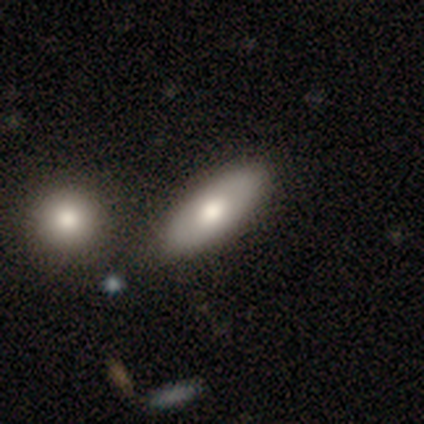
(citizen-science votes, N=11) This appears to be a smooth galaxy with no disk features (55%) that is in between round and cigar-shaped (83%). Merging: none (78%).